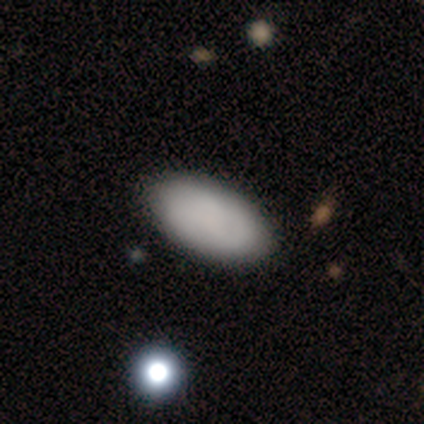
Smooth or featured?
  - smooth: 90% *
  - featured or disk: 10%
  - star or artifact: 0%
How rounded?
  - in between: 97% *
  - cigar-shaped: 3%
  - round: 0%
Merging?
  - none: 68% *
  - minor disturbance: 5%
  - merger: 2%
  - major disturbance: 0%